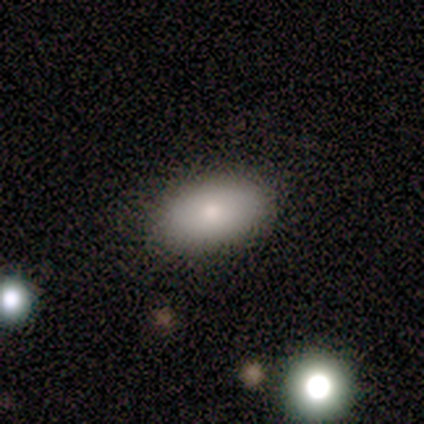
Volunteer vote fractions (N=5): A smooth galaxy with no disk features (80%) that is in between round and cigar-shaped (75%).

Vote fractions:
- Smooth or featured? smooth: 80% / featured or disk: 20% / star or artifact: 0%
- How rounded? in between: 75% / round: 25% / cigar-shaped: 0%
- Merging? none: 80% / major disturbance: 20% / minor disturbance: 0% / merger: 0%